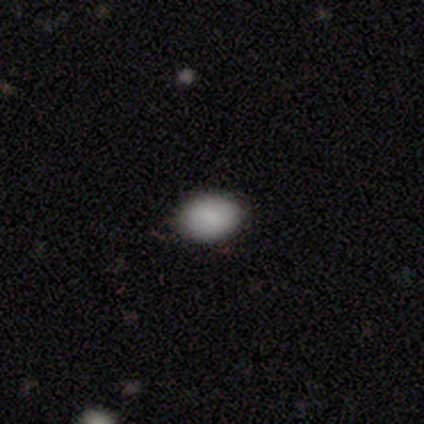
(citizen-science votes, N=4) A smooth galaxy with no disk features (75%) that is in between round and cigar-shaped (100%).

Vote fractions:
- Smooth or featured? smooth: 75% / star or artifact: 25% / featured or disk: 0%
- How rounded? in between: 100% / round: 0% / cigar-shaped: 0%
- Merging? none: 67% / minor disturbance: 33% / major disturbance: 0% / merger: 0%